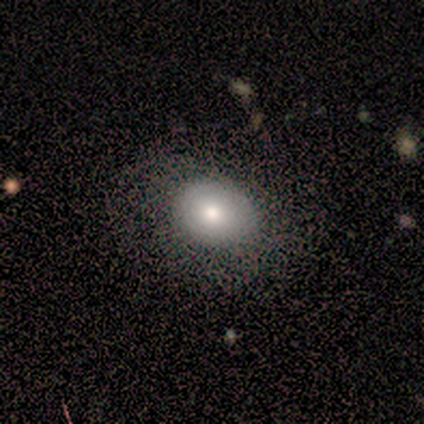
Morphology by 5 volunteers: Overall: smooth (100%). How rounded: in between (60%; round 40%). Merging: none (100%).